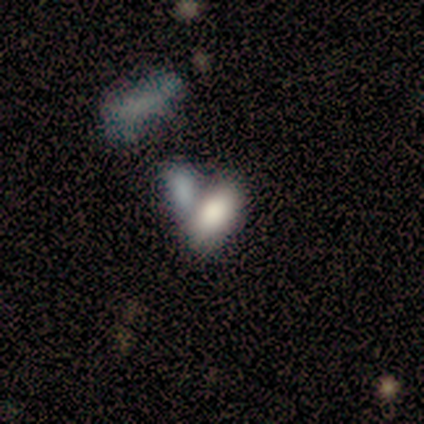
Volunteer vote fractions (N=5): smooth_or_featured: smooth (p=1.00)
how_rounded: in between (p=1.00)
merging: none (p=0.40) [tied with: minor disturbance p=0.40]